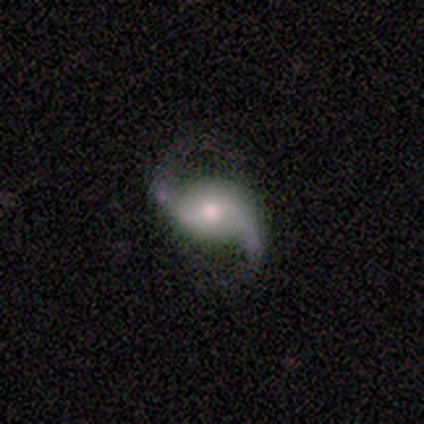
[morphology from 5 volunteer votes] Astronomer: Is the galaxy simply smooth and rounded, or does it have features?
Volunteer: featured or disk — 100%.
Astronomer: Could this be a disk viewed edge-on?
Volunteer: no — 100%.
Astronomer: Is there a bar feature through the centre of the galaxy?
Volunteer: no — 100%.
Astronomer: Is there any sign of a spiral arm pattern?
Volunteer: yes — 100%.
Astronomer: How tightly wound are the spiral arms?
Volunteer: loose — 60% (runner-up: medium, 40%).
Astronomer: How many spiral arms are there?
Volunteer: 2 — 100%.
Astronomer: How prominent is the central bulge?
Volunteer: moderate — 60%.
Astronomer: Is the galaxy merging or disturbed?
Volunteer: none — 100%.